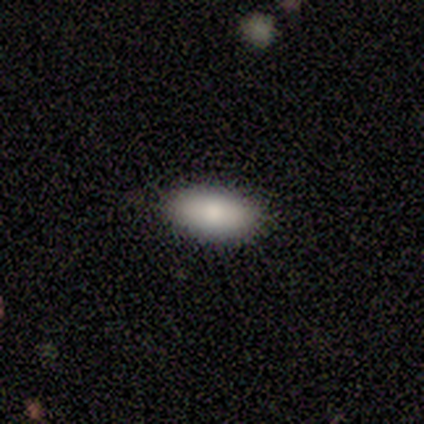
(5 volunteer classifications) A smooth galaxy with no disk features (100%) that is in between round and cigar-shaped (80%).

Vote fractions:
- Smooth or featured? smooth: 100% / featured or disk: 0% / star or artifact: 0%
- How rounded? in between: 80% / cigar-shaped: 20% / round: 0%
- Merging? none: 80% / minor disturbance: 20% / major disturbance: 0% / merger: 0%